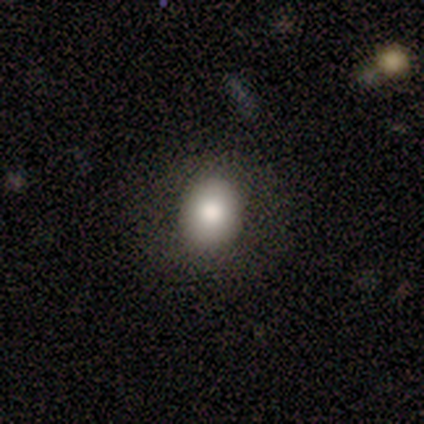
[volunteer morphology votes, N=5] type=smooth (80%); roundness=round (50%, tied with in between); merging=none (80%).